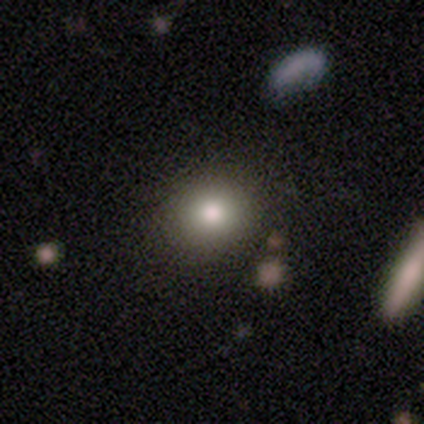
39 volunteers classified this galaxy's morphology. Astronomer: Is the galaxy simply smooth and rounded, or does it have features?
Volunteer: smooth — 72%.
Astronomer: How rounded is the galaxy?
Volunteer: round — 89%.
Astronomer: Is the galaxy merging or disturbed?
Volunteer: none — 92%.